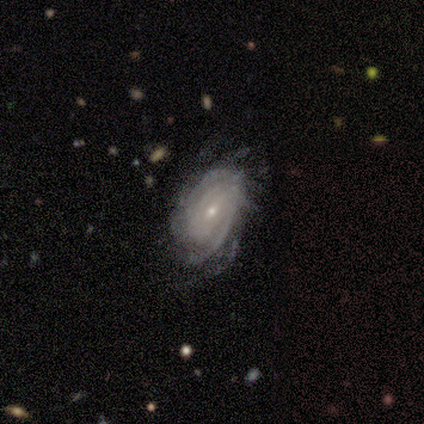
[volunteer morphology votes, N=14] smooth-or-featured: featured or disk: 79% | smooth: 14% | star or artifact: 7%
  disk-edge-on: no: 100% | yes: 0%
    bar: no: 64% | weak: 36% | strong: 0%
    has-spiral-arms: yes: 100% | no: 0%
      spiral-winding: tight: 82% | medium: 18% | loose: 0%
      spiral-arm-count: can't tell: 64% | 2: 18% | 3: 9% | more than 4: 9% | 1: 0% | 4: 0%
    bulge-size: small: 64% | moderate: 36% | dominant: 0% | large: 0% | none: 0%
  merging: none: 54% | minor disturbance: 38% | major disturbance: 8% | merger: 0%